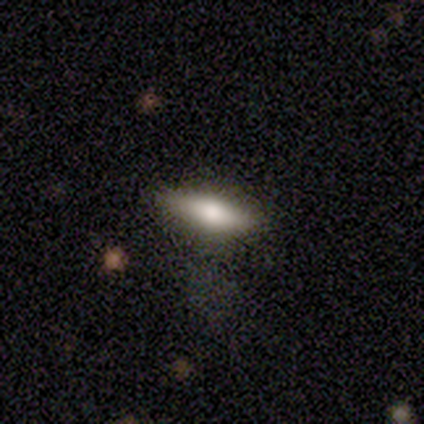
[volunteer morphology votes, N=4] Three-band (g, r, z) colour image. It shows a smooth galaxy with no disk features (100%) that is in between round and cigar-shaped (100%). Merging: none (50%, tied with minor disturbance).